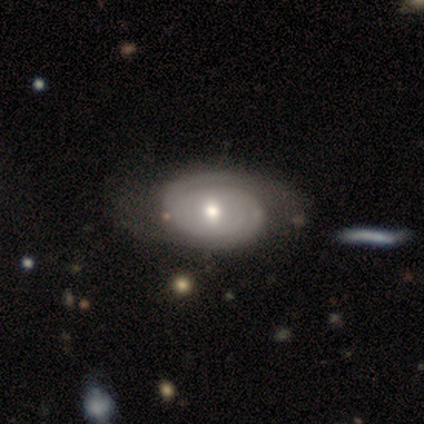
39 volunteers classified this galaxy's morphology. smooth-or-featured: featured or disk: 85% | smooth: 13% | star or artifact: 3%
  disk-edge-on: no: 97% | yes: 3%
    bar: no: 72% | weak: 22% | strong: 6%
    has-spiral-arms: yes: 91% | no: 9%
      spiral-winding: tight: 86% | medium: 14% | loose: 0%
      spiral-arm-count: 2: 45% | can't tell: 38% | 3: 10% | 1: 7% | 4: 0% | more than 4: 0%
    bulge-size: moderate: 53% | small: 38% | dominant: 6% | large: 3% | none: 0%
  merging: none: 68% | major disturbance: 8% | merger: 5% | minor disturbance: 3%